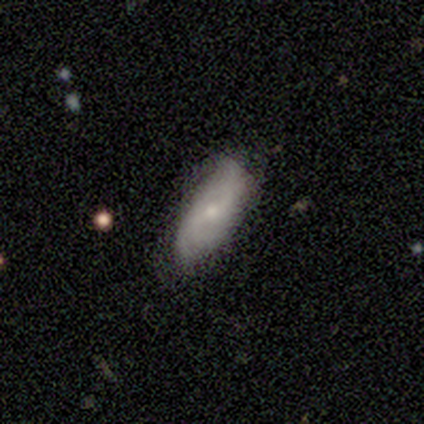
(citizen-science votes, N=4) Morphology: type=smooth (50%); roundness=in between (100%); merging=none (33%, tied with minor disturbance and merger).